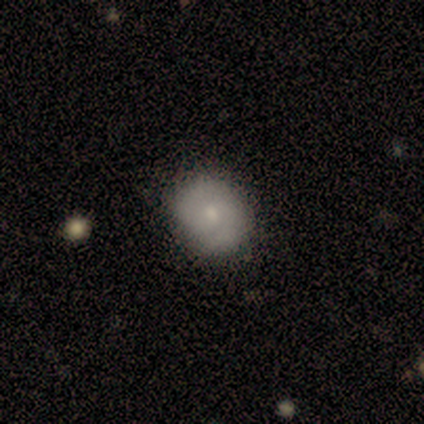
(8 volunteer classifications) This appears to be a smooth galaxy with no disk features (62%) that is round (60%). Merging: none (100%).